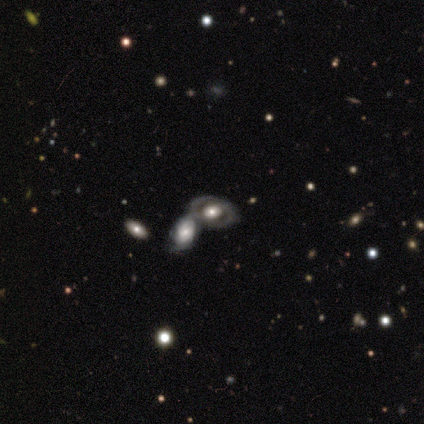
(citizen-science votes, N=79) Smooth or featured: featured or disk — 76% (smooth — 15%)
Edge-on disk: no — 98% (yes — 2%)
Bar: no — 78% (weak — 15%)
Spiral arms: no — 58% (yes — 42%)
Bulge size: moderate — 42% (large — 37%)
Merging: none — 47% (merger — 43%)